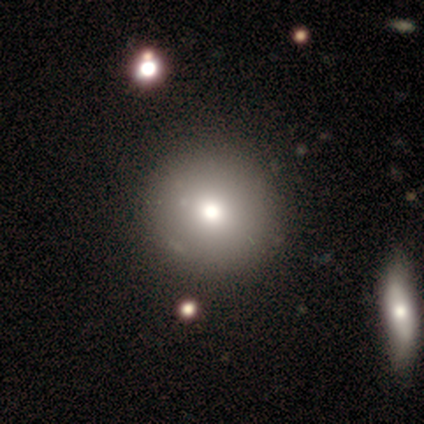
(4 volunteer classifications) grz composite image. It shows a smooth galaxy with no disk features (100%) that is round (100%). Merging: none (100%).